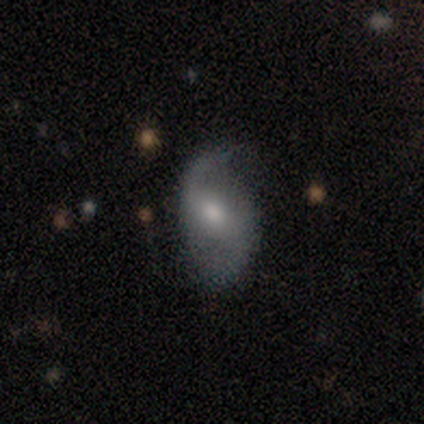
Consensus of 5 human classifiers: A featured or disk galaxy (60%) with a weak bar (67%), 2 (100%) loose (100%) spiral arms (100%) and a moderate central bulge (33%, tied with small and none).

Vote fractions:
- Smooth or featured? featured or disk: 60% / smooth: 40% / star or artifact: 0%
- Edge-on disk? no: 100% / yes: 0%
- Bar? weak: 67% / no: 33% / strong: 0%
- Spiral arms? yes: 100% / no: 0%
- Spiral winding? loose: 100% / tight: 0% / medium: 0%
- Spiral arm count? 2: 100% / 1: 0% / 3: 0% / 4: 0% / more than 4: 0% / can't tell: 0%
- Bulge size? moderate: 33% (tied) / small: 33% (tied) / none: 33% (tied) / dominant: 0% / large: 0%
- Merging? none: 60% / minor disturbance: 20% / major disturbance: 20% / merger: 0%